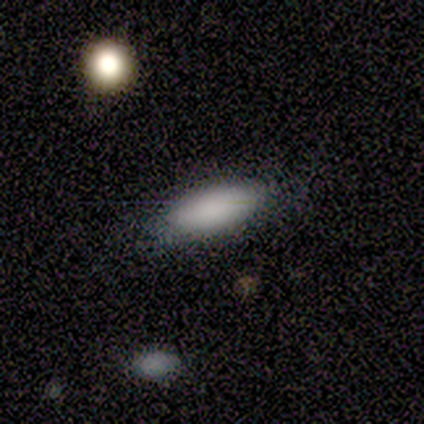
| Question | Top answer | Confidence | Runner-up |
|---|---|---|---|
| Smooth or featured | smooth | 100% | — |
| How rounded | in between | 100% | — |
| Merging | none | 100% | — |